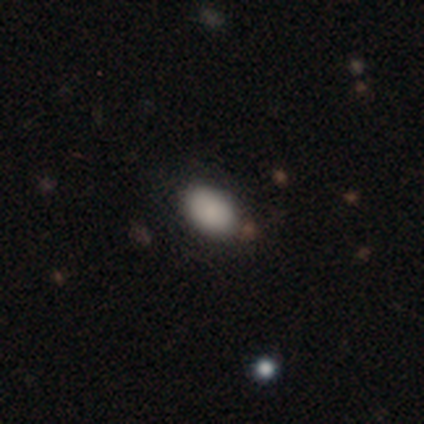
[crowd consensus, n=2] Smooth or featured? 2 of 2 (100%) said smooth. How rounded? 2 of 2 (100%) said in between. Merging? 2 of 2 (100%) said none.